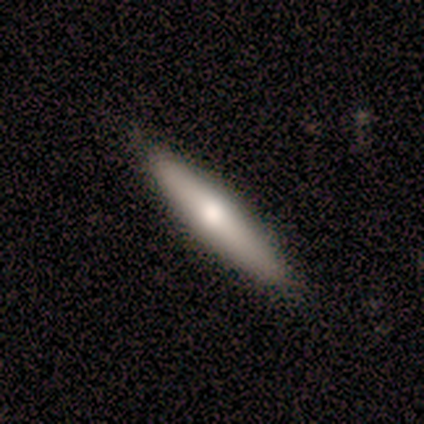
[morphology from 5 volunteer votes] Smooth or featured? featured or disk (60%)
Edge-on disk? yes (100%)
Edge-on bulge? rounded (100%)
Merging? none (60%)